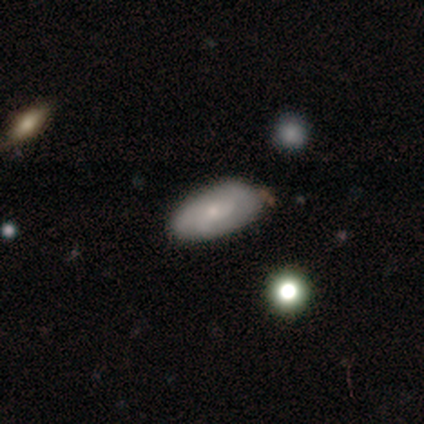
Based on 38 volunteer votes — This appears to be a smooth galaxy with no disk features (58%) that is in between round and cigar-shaped (95%). Merging: none (64%).